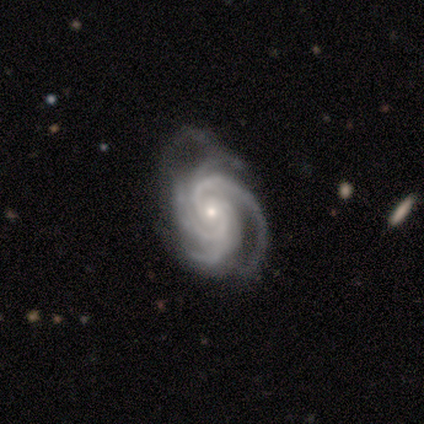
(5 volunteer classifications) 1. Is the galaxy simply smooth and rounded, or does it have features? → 100% featured or disk, 0% smooth, 0% star or artifact.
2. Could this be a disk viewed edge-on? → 100% no, 0% yes.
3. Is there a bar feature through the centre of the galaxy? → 80% no, 20% weak, 0% strong.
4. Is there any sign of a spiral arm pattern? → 100% yes, 0% no.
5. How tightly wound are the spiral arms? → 60% tight, 40% medium, 0% loose.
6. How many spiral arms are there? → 100% 4, 0% 1, 0% 2, 0% 3, 0% more than 4, 0% can't tell.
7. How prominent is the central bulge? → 80% small, 20% moderate, 0% dominant, 0% large, 0% none.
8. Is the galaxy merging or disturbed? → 60% minor disturbance, 20% none, 20% major disturbance, 0% merger.